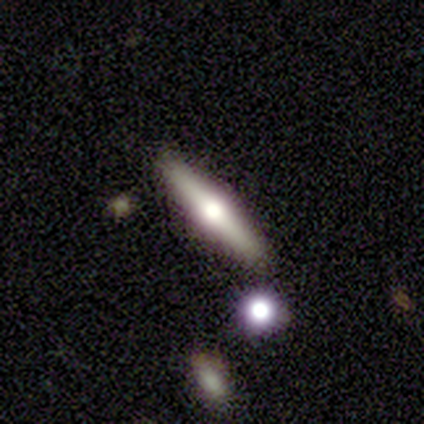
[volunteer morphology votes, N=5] Overall: smooth (60%; featured or disk 40%). How rounded: cigar-shaped (100%). Merging: none (100%).